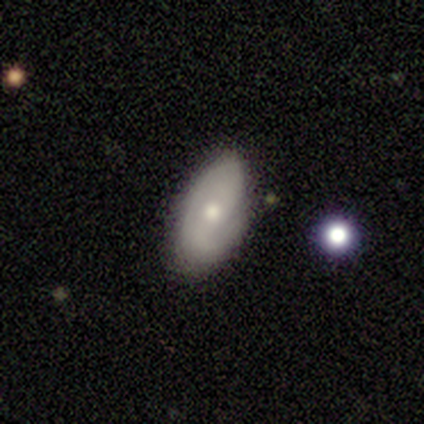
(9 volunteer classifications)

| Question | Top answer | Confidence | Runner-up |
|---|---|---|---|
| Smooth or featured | featured or disk | 78% | smooth (22%) |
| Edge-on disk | no | 86% | yes (14%) |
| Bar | no | 67% | weak (33%) |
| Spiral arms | yes | 83% | no (17%) |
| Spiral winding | medium | 40% | tied: loose (40%) |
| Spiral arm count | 2 | 80% | 1 (20%) |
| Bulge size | small | 67% | moderate (33%) |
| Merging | none | 78% | minor disturbance (22%) |